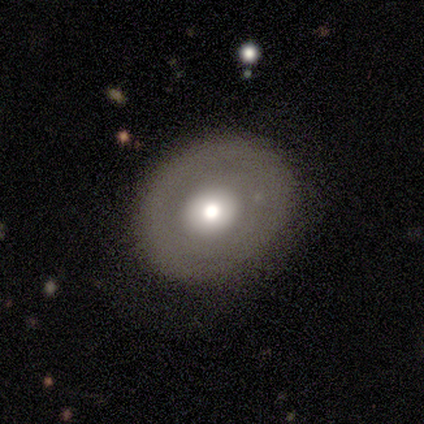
Overall: featured or disk (67%; smooth 33%). Edge-on disk: yes (50%, tied with no). Edge-on bulge: rounded (100%). Merging: none (67%; minor disturbance 33%).